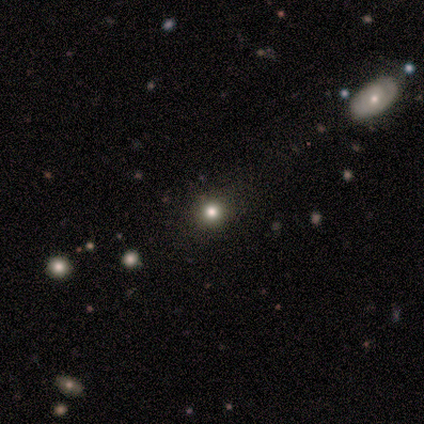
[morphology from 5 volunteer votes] Overall: smooth (100%). How rounded: round (60%; in between 40%). Merging: none (40%, tied with minor disturbance).